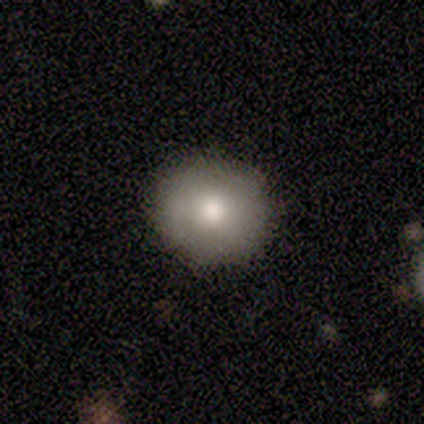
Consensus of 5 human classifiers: A smooth galaxy with no disk features (60%) that is round (67%). Merging: none (100%).